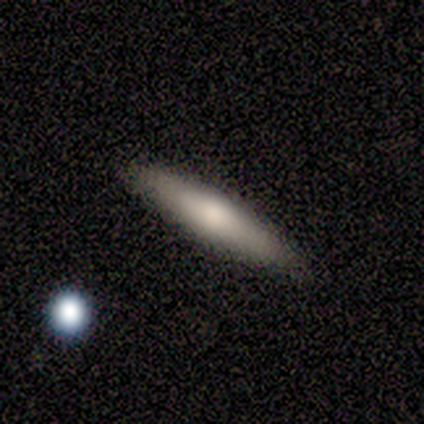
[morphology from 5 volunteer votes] A smooth galaxy with no disk features (80%) that is cigar-shaped (100%). Merging: none (100%).